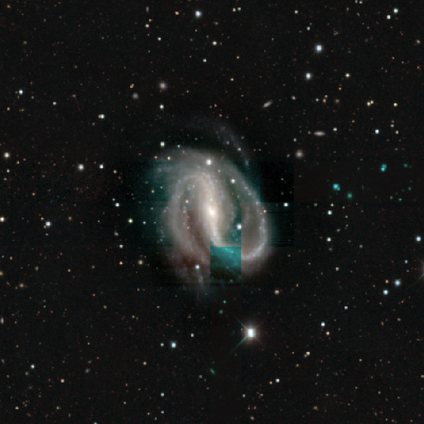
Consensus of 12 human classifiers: Morphology: type=featured or disk (100%); edge-on=no (100%); bar=strong (75%); spiral arms=yes (100%); winding=tight (50%); arm count=2 (83%); bulge=small (67%); merging=none (83%).